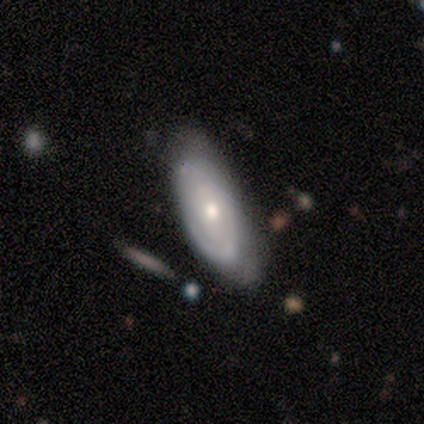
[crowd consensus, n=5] smooth-or-featured: featured or disk: 60% | smooth: 40% | star or artifact: 0%
  disk-edge-on: no: 100% | yes: 0%
    bar: no: 100% | strong: 0% | weak: 0%
    has-spiral-arms: yes: 67% | no: 33%
      spiral-winding: tight: 100% | medium: 0% | loose: 0%
      spiral-arm-count: can't tell: 100% | 1: 0% | 2: 0% | 3: 0% | 4: 0% | more than 4: 0%
    bulge-size: moderate: 67% | large: 33% | dominant: 0% | small: 0% | none: 0%
  merging: none: 60% | minor disturbance: 40% | major disturbance: 0% | merger: 0%